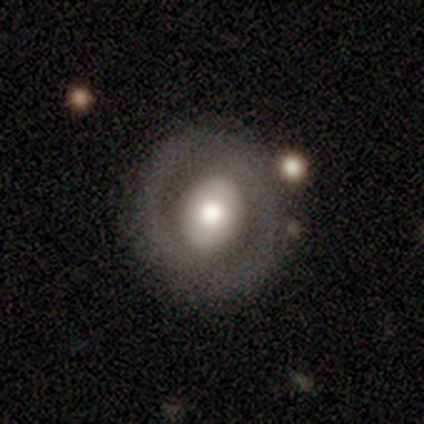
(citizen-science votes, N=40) A featured or disk galaxy (57%) with no bar (59%), no spiral arms (59%) and a moderate central bulge (64%). Merging: none (77%).